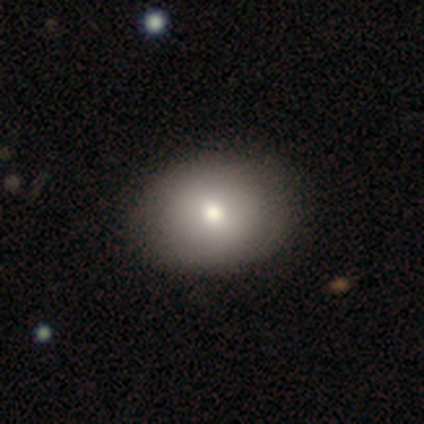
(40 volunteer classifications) smooth 80%, featured or disk 12%, star or artifact 8%. Down the decision tree: how rounded — round (50%, tied with in between); merging — none (62%).